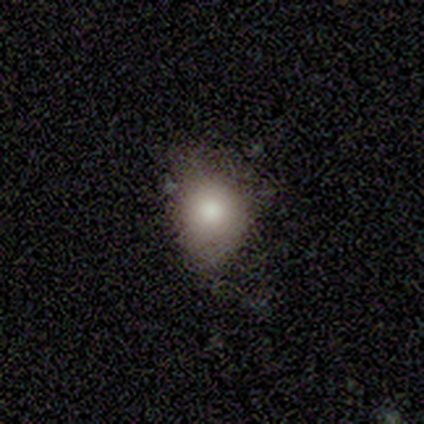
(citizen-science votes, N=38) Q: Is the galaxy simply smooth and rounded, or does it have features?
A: smooth — 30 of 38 (79%).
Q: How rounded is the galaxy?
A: round — 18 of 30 (60%).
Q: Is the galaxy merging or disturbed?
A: none — 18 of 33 (55%).